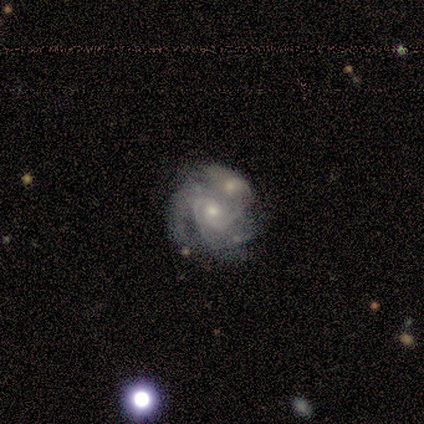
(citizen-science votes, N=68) Q: Smooth or featured?
A: featured or disk (93%); runner-up: star or artifact (4%)
Q: Edge-on disk?
A: no (97%); runner-up: yes (3%)
Q: Bar?
A: no (75%); runner-up: weak (23%)
Q: Spiral arms?
A: yes (97%); runner-up: no (3%)
Q: Spiral winding?
A: tight (63%); runner-up: medium (32%)
Q: Spiral arm count?
A: 3 (42%); runner-up: 2 (32%)
Q: Bulge size?
A: moderate (56%); runner-up: small (41%)
Q: Merging?
A: merger (65%); runner-up: none (20%)